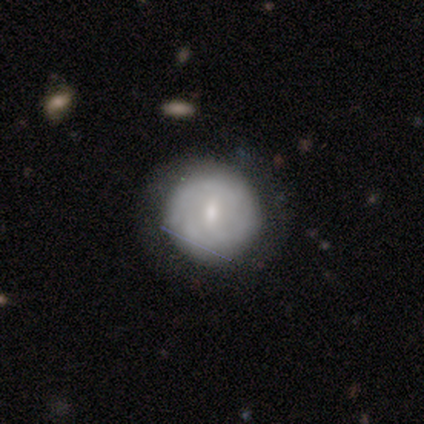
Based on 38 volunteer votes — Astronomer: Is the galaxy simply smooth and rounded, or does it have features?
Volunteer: featured or disk — 50% (runner-up: smooth, 45%).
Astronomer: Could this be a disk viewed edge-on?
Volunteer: no — 95%.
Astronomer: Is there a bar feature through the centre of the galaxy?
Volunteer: weak — 44%, tied with no at 44%.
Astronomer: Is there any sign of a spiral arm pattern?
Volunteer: yes — 61% (runner-up: no, 39%).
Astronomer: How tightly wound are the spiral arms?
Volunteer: tight — 64%.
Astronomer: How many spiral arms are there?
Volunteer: can't tell — 73%.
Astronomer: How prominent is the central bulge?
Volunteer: small — 61%.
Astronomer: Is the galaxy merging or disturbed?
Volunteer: none — 64%.